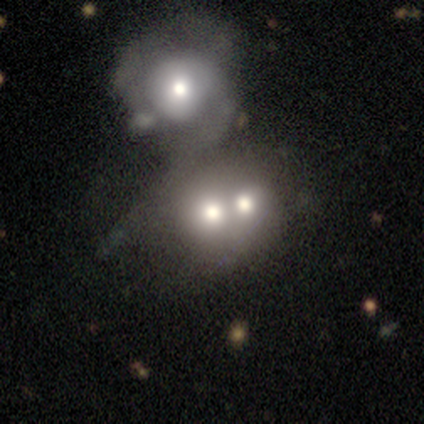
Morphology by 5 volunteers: A smooth galaxy with no disk features (40%, tied with star or artifact) that is round (50%, tied with in between). Merging: merger (100%).